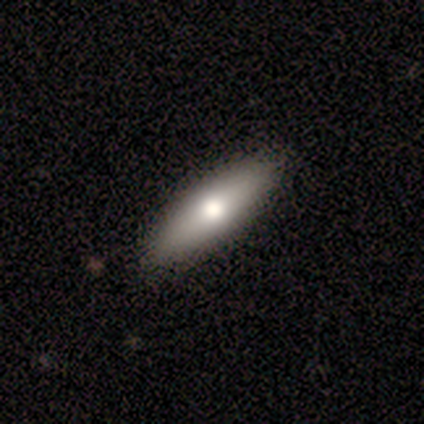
Smooth or featured?
  - featured or disk: 60% *
  - smooth: 20%
  - star or artifact: 20%
Edge-on disk?
  - no: 67% *
  - yes: 33%
Bar?
  - no: 100% *
  - strong: 0%
  - weak: 0%
Spiral arms?
  - no: 100% *
  - yes: 0%
Bulge size?
  - moderate: 50% * (tied)
  - small: 50% * (tied)
  - dominant: 0%
  - large: 0%
  - none: 0%
Merging?
  - none: 100% *
  - minor disturbance: 0%
  - major disturbance: 0%
  - merger: 0%